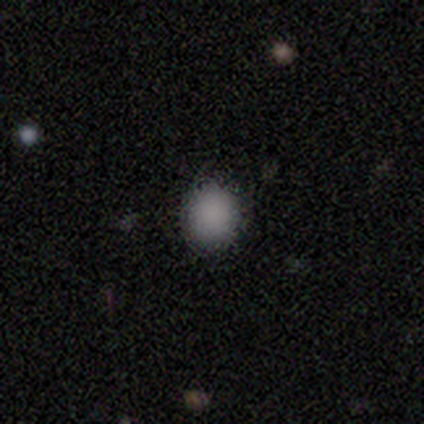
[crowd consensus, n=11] Volunteers were most divided on "how rounded": round: 73%, in between: 27%, cigar-shaped: 0%. More confident: smooth or featured — smooth (100%); merging — none (82%).